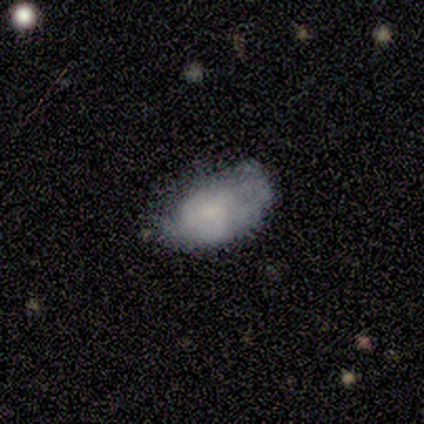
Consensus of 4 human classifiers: Overall: featured or disk (50%; smooth 25%). Edge-on disk: no (100%). Bar: weak (50%, tied with no). Spiral arms: yes (100%). Spiral arm count: 2 (50%, tied with can't tell). Spiral winding: tight (50%, tied with medium). Bulge size: small (50%, tied with none). Merging: none (33%, tied with minor disturbance and major disturbance).